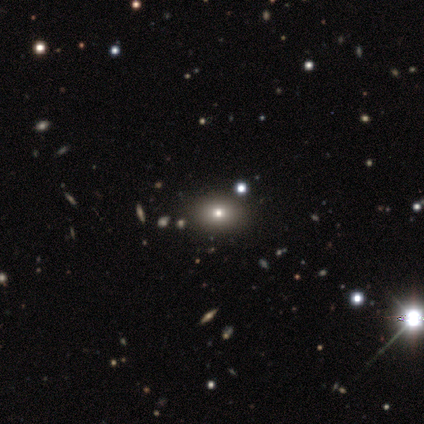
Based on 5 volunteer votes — Smooth or featured?
  - smooth: 100% *
  - featured or disk: 0%
  - star or artifact: 0%
How rounded?
  - round: 60% *
  - in between: 40%
  - cigar-shaped: 0%
Merging?
  - none: 100% *
  - minor disturbance: 0%
  - major disturbance: 0%
  - merger: 0%